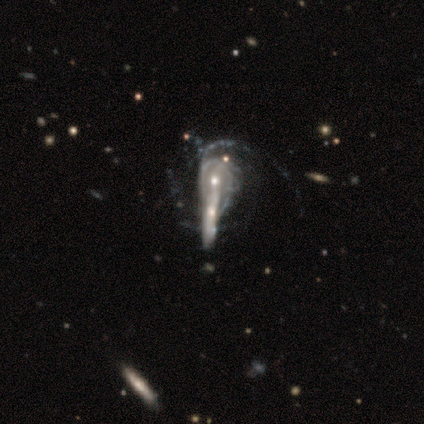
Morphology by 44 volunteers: A featured or disk galaxy (82%) with no bar (55%), medium (41%) spiral arms (94%) and a moderate central bulge (52%). Merging: merger (51%).